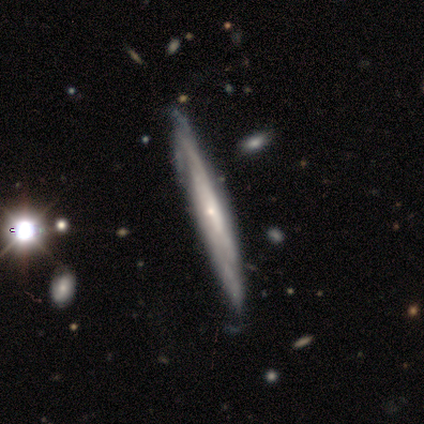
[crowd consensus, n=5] This is clearly a featured or disk galaxy (100%). It is clearly not viewed edge-on (80%). Bar: clearly no (100%). Spiral arm pattern: clearly yes (100%). Spiral arm count: possibly 2 (50%, tied with can't tell). Spiral winding: likely tight (75%). Central bulge: possibly moderate (50%, tied with small). Merging: clearly none (80%).